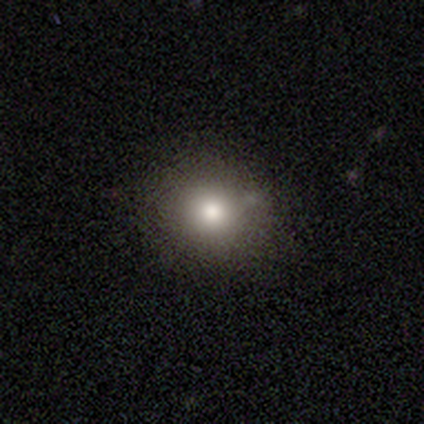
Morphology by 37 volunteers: type=smooth (76%); roundness=round (75%); merging=none (87%).